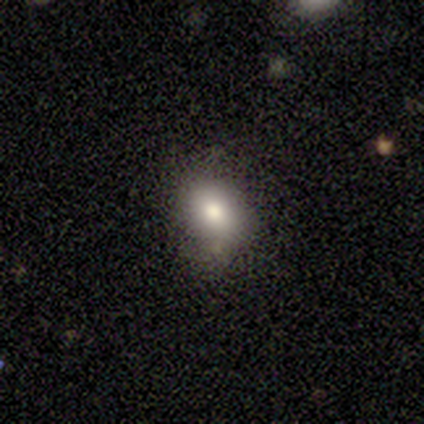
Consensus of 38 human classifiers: Smooth or featured?
  - smooth: 87% *
  - star or artifact: 8%
  - featured or disk: 5%
How rounded?
  - in between: 52% *
  - round: 48%
  - cigar-shaped: 0%
Merging?
  - none: 71% *
  - minor disturbance: 23%
  - major disturbance: 3%
  - merger: 3%